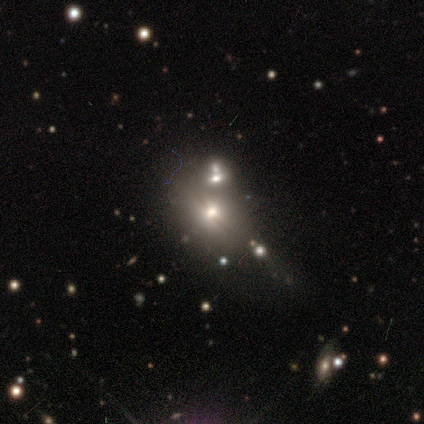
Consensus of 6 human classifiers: Smooth or featured? 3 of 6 (50%) said featured or disk. Edge-on disk? 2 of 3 (67%) said yes. Edge-on bulge? 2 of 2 (100%) said rounded. Merging? 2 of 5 (40%, tied with minor disturbance) said none.